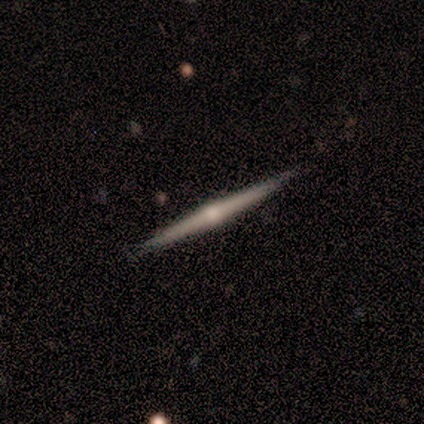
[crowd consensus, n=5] Smooth or featured: featured or disk — 80% (smooth — 20%)
Edge-on disk: yes — 100%
Edge-on bulge: rounded — 75% (none — 25%)
Merging: none — 100%